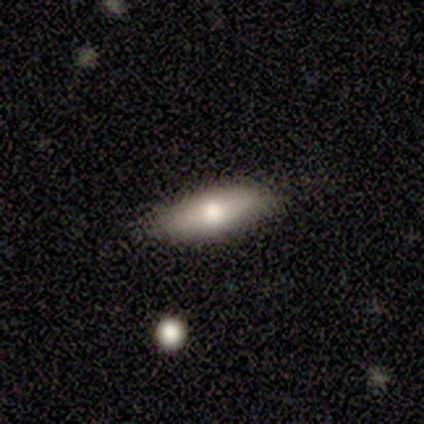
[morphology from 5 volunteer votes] Smooth or featured?
  - featured or disk: 60% *
  - smooth: 40%
  - star or artifact: 0%
Edge-on disk?
  - yes: 67% *
  - no: 33%
Edge-on bulge?
  - rounded: 100% *
  - boxy: 0%
  - none: 0%
Merging?
  - none: 100% *
  - minor disturbance: 0%
  - major disturbance: 0%
  - merger: 0%